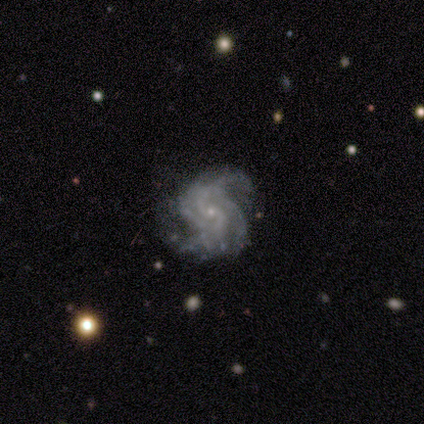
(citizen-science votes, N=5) This appears to be a featured or disk galaxy (80%) with no bar (100%), 2 (50%, tied with 4) medium (75%) spiral arms (100%) and a small central bulge (100%). Merging: none (50%, tied with minor disturbance).